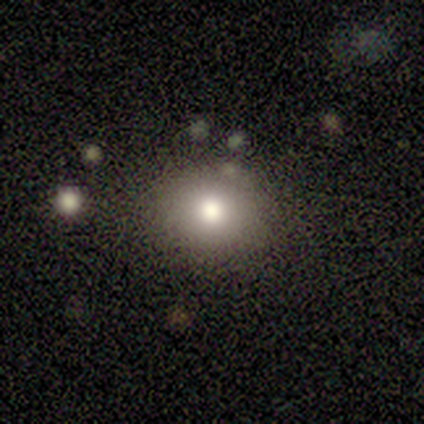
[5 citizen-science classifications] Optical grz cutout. It shows a smooth galaxy with no disk features (100%) that is round (60%). Merging: none (80%).